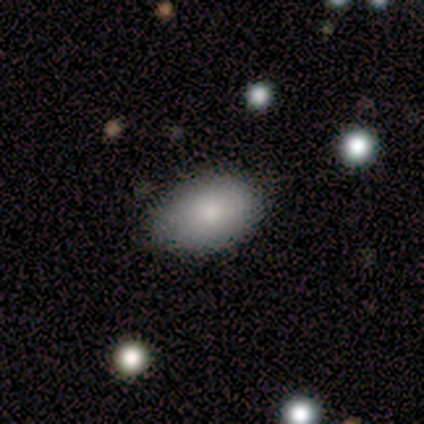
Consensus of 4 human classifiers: Morphology: type=smooth (100%); roundness=in between (100%); merging=none (75%).